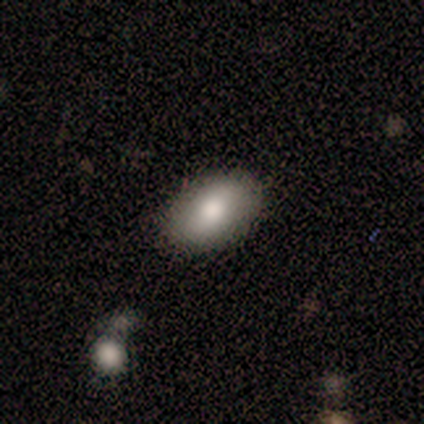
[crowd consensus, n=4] A smooth galaxy with no disk features (100%) that is in between round and cigar-shaped (100%).

Vote fractions:
- Smooth or featured? smooth: 100% / featured or disk: 0% / star or artifact: 0%
- How rounded? in between: 100% / round: 0% / cigar-shaped: 0%
- Merging? none: 100% / minor disturbance: 0% / major disturbance: 0% / merger: 0%